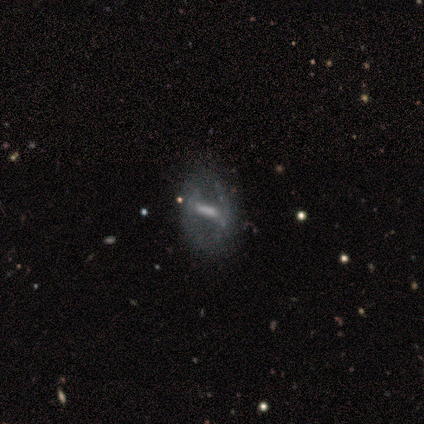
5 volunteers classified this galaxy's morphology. This appears to be a featured or disk galaxy (80%) viewed edge-on (50%, tied with no) with a boxy central bulge (50%, tied with none). Merging: none (75%).